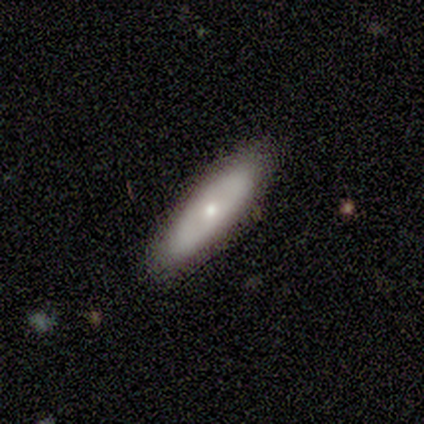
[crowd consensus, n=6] Smooth or featured?
  - smooth: 83% *
  - featured or disk: 17%
  - star or artifact: 0%
How rounded?
  - in between: 80% *
  - cigar-shaped: 20%
  - round: 0%
Merging?
  - none: 100% *
  - minor disturbance: 0%
  - major disturbance: 0%
  - merger: 0%